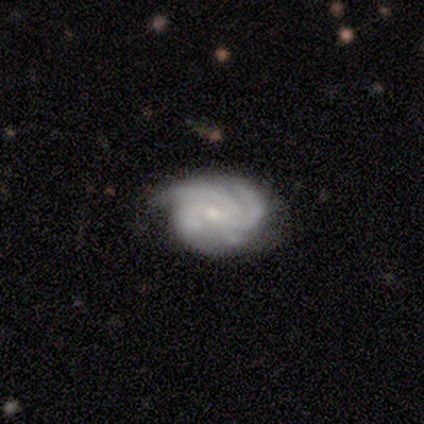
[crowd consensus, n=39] A featured or disk galaxy (95%) with no bar (57%), 3 (36%, tied with 4) tight (50%) spiral arms (97%) and a small central bulge (68%).

Vote fractions:
- Smooth or featured? featured or disk: 95% / smooth: 3% / star or artifact: 3%
- Edge-on disk? no: 100% / yes: 0%
- Bar? no: 57% / weak: 38% / strong: 5%
- Spiral arms? yes: 97% / no: 3%
- Spiral winding? tight: 50% / medium: 36% / loose: 14%
- Spiral arm count? 3: 36% (tied) / 4: 36% (tied) / 2: 14% / can't tell: 14% / 1: 0% / more than 4: 0%
- Bulge size? small: 68% / moderate: 27% / none: 5% / dominant: 0% / large: 0%
- Merging? none: 63% / minor disturbance: 26% / major disturbance: 5% / merger: 5%